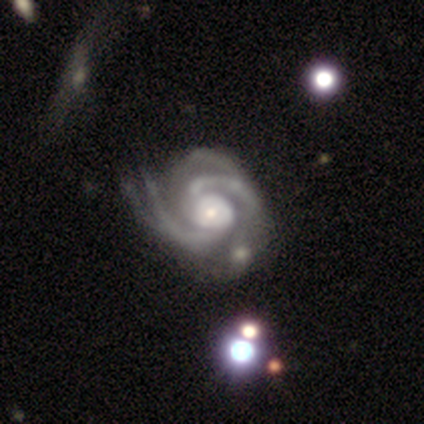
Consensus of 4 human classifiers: Volunteers were most divided on "spiral arm count": 2: 50%, 3: 25%, 4: 25%, 1: 0%, more than 4: 0%, can't tell: 0%. More confident: smooth or featured — featured or disk (100%); edge-on disk — no (100%); bar — no (100%); spiral arms — yes (100%); merging — minor disturbance (100%); spiral winding — medium (75%); bulge size — small (75%).